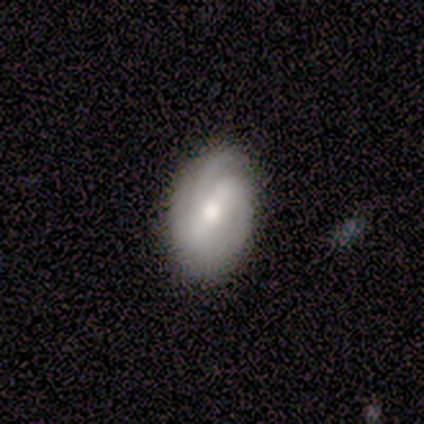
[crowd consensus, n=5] Volunteers were most divided on "bar" (2-way tie): strong: 40%, weak: 40%, no: 20%. Remaining: smooth or featured — featured or disk (100%); edge-on disk — no (100%); spiral arms — yes (100%); merging — none (100%); spiral winding — medium (80%); bulge size — moderate (60%); spiral arm count — 3 (40%).